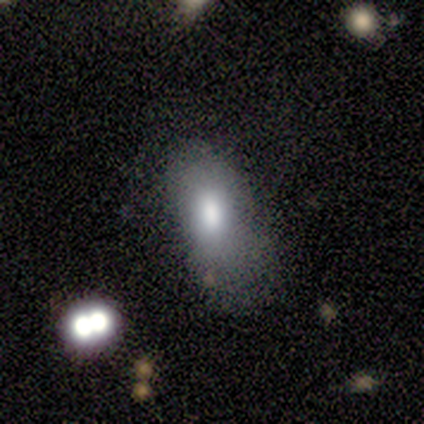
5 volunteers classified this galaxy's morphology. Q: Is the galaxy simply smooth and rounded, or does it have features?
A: smooth — 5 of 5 (100%).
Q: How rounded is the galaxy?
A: in between — 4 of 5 (80%).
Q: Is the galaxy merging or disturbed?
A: none — 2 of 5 (40%, tied with major disturbance).